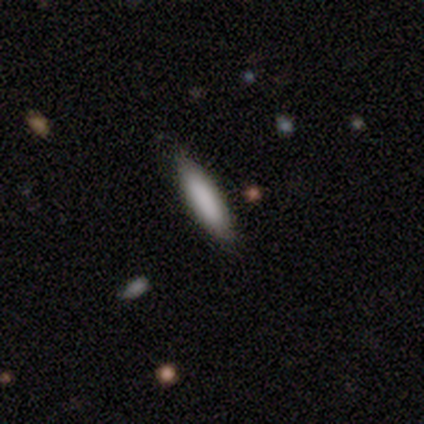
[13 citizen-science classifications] Smooth or featured?
  - smooth: 85% *
  - featured or disk: 15%
  - star or artifact: 0%
How rounded?
  - cigar-shaped: 64% *
  - in between: 36%
  - round: 0%
Merging?
  - none: 92% *
  - merger: 8%
  - minor disturbance: 0%
  - major disturbance: 0%